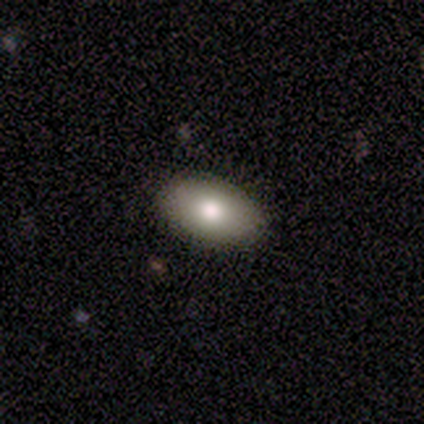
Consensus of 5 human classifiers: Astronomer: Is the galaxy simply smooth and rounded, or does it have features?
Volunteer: smooth — 80%.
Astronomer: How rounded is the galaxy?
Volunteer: in between — 100%.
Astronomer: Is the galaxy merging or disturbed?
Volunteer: none — 80%.